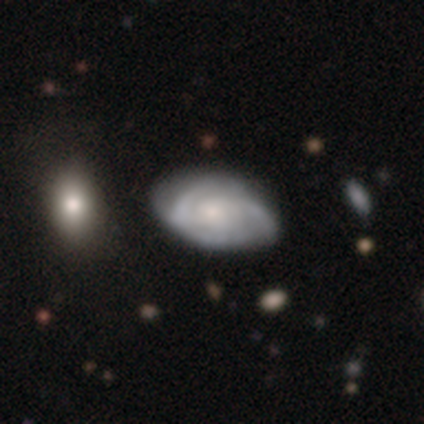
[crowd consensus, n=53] smooth-or-featured: featured or disk: 83% | smooth: 13% | star or artifact: 4%
  disk-edge-on: no: 100% | yes: 0%
    bar: no: 73% | weak: 25% | strong: 2%
    has-spiral-arms: yes: 89% | no: 11%
      spiral-winding: tight: 49% | medium: 38% | loose: 13%
      spiral-arm-count: 2: 38% | 3: 33% | can't tell: 28% | 1: 0% | 4: 0% | more than 4: 0%
    bulge-size: small: 57% | moderate: 27% | large: 9% | none: 7% | dominant: 0%
  merging: none: 61% | minor disturbance: 29% | merger: 6% | major disturbance: 4%